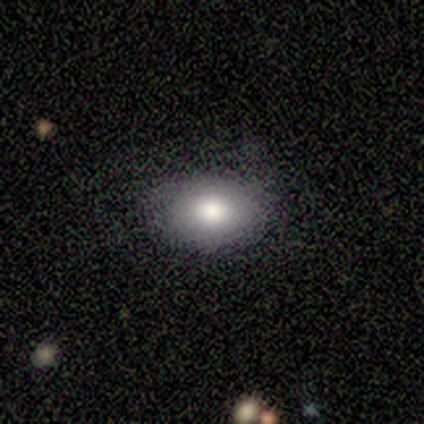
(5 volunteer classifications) Smooth or featured: smooth — 100%
How rounded: in between — 100%
Merging: none — 60% (minor disturbance — 20%)